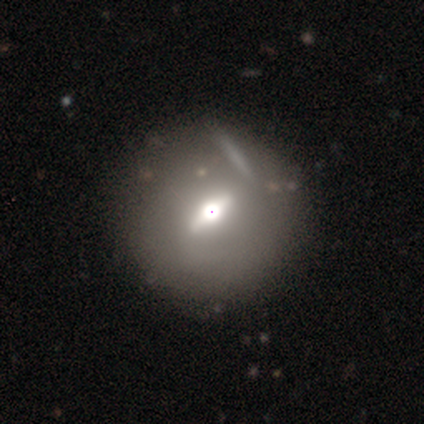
A smooth galaxy with no disk features (50%, tied with featured or disk) that is round (100%).

Vote fractions:
- Smooth or featured? smooth: 50% (tied) / featured or disk: 50% (tied) / star or artifact: 0%
- How rounded? round: 100% / in between: 0% / cigar-shaped: 0%
- Merging? none: 75% / minor disturbance: 25% / major disturbance: 0% / merger: 0%